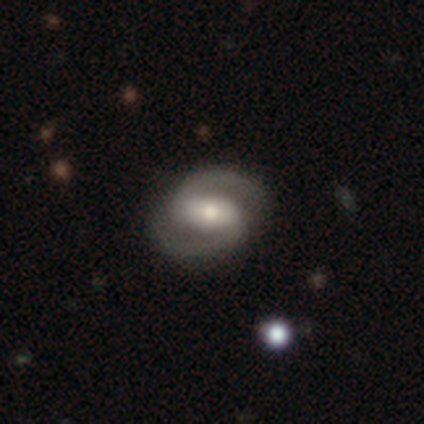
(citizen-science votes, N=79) Morphology: type=featured or disk (94%); edge-on=no (96%); bar=strong (48%); spiral arms=yes (99%); winding=medium (60%); arm count=2 (100%); bulge=moderate (66%); merging=none (45%).